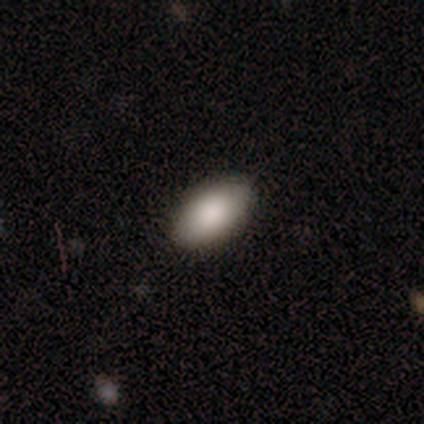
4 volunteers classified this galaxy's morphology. smooth 75%, star or artifact 25%, featured or disk 0%. Down the decision tree: how rounded — in between (100%); merging — none (100%).